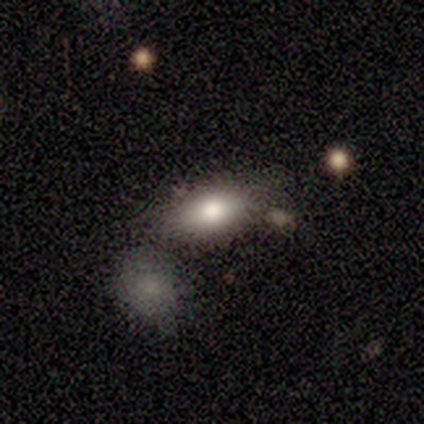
Smooth or featured: smooth — 80% (featured or disk — 20%)
How rounded: in between — 100%
Merging: none — 40% (tied with minor disturbance — 40%)